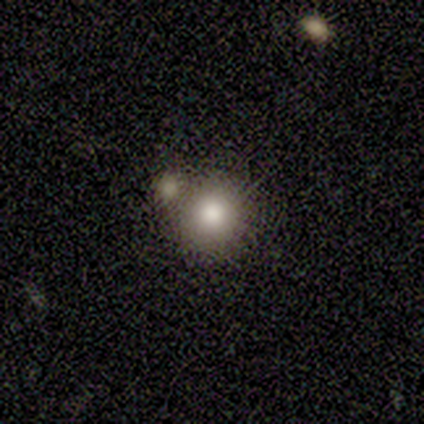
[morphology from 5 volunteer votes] Volunteers were most divided on "merging": none: 75%, minor disturbance: 25%, major disturbance: 0%, merger: 0%. More confident: how rounded — round (100%); smooth or featured — smooth (80%).